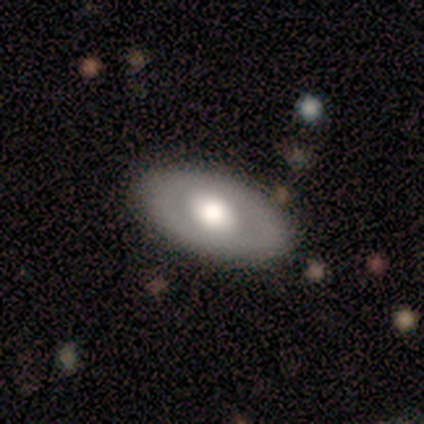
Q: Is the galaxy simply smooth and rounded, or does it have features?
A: smooth — 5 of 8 (62%).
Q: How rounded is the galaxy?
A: in between — 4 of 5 (80%).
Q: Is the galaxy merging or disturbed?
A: none — 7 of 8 (88%).